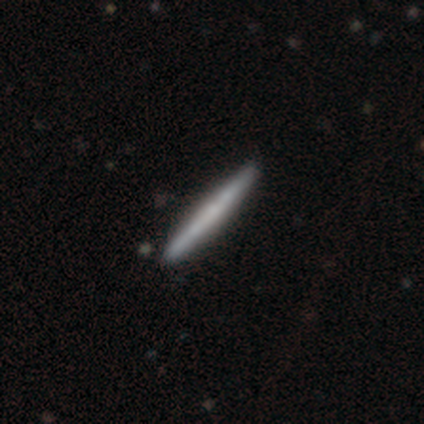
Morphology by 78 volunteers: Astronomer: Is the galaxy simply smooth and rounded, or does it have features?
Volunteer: featured or disk — 50% (runner-up: smooth, 49%).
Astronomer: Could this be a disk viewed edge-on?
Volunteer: yes — 97%.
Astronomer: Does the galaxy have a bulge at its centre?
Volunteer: none — 79%.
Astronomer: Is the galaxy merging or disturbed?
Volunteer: none — 45%.